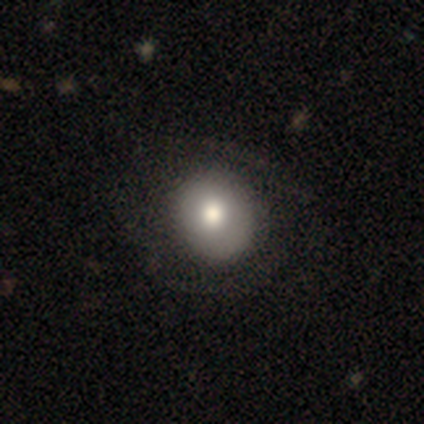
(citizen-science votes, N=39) smooth_or_featured: smooth (p=0.74) [alt: featured or disk p=0.21]
how_rounded: round (p=0.76) [alt: in between p=0.24]
merging: none (p=0.54) [alt: minor disturbance p=0.08]